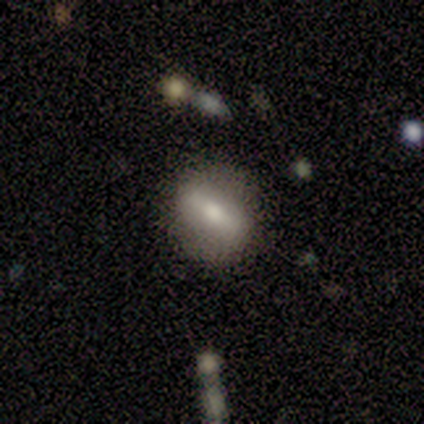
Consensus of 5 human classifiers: This is likely a featured or disk galaxy (60%). It is clearly not viewed edge-on (100%). Bar: clearly strong (100%). Spiral arm pattern: likely no (67%). Central bulge: clearly small (100%). Merging: clearly none (80%).